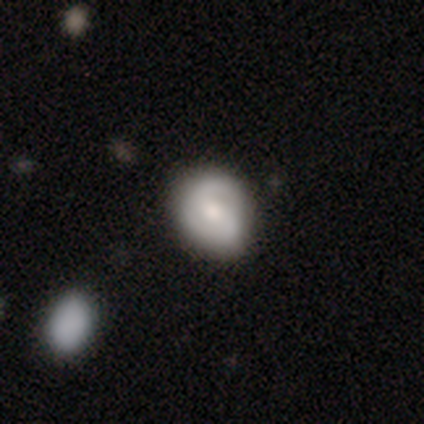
Morphology: type=featured or disk (50%); edge-on=no (100%); bar=no (53%); spiral arms=yes (89%); winding=tight (59%); arm count=2 (65%); bulge=moderate (63%); merging=none (47%).